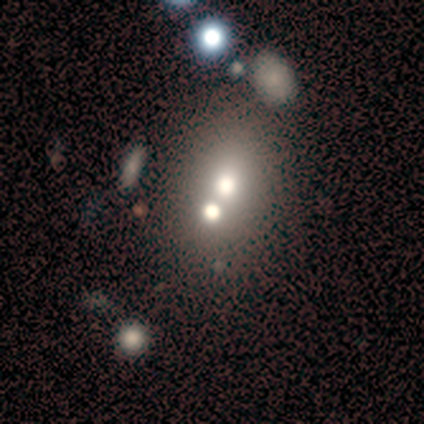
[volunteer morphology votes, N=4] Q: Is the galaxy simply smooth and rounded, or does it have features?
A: star or artifact — 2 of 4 (50%).